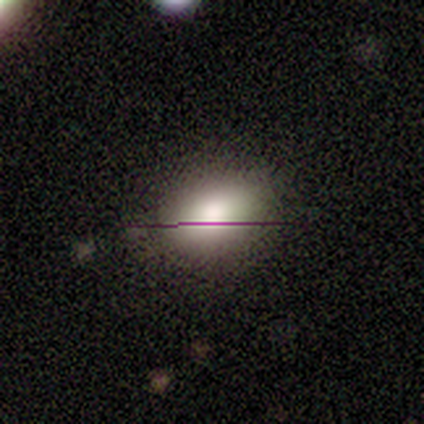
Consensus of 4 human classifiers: smooth_or_featured: featured or disk (p=0.75) [alt: star or artifact p=0.25]
disk_edge_on: no (p=0.67) [alt: yes p=0.33]
bar: weak (p=0.50) [tied with: no p=0.50]
has_spiral_arms: no (p=1.00)
bulge_size: moderate (p=1.00)
merging: none (p=0.67) [alt: major disturbance p=0.33]